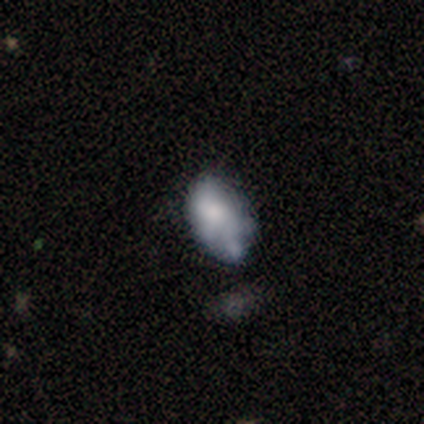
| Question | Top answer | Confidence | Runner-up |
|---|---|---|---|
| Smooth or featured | smooth | 60% | featured or disk (40%) |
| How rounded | in between | 100% | — |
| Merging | none | 60% | minor disturbance (20%) |